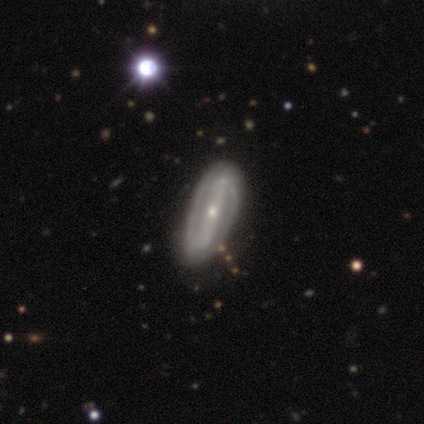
Volunteers were most divided on "spiral winding": tight: 44%, medium: 28%, loose: 28%. More confident: spiral arm count — 2 (100%); edge-on disk — no (97%); spiral arms — yes (91%); smooth or featured — featured or disk (90%); bar — strong (80%); bulge size — small (71%); merging — none (63%).